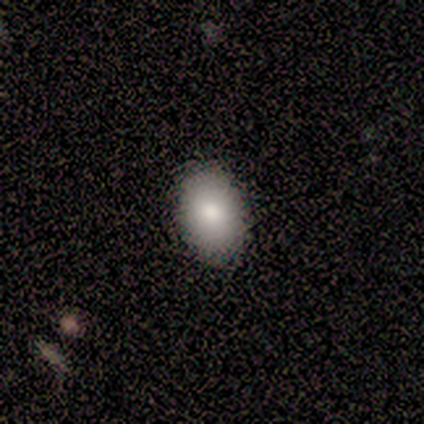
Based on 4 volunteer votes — This appears to be a smooth galaxy with no disk features (75%) that is in between round and cigar-shaped (100%). Merging: none (100%).